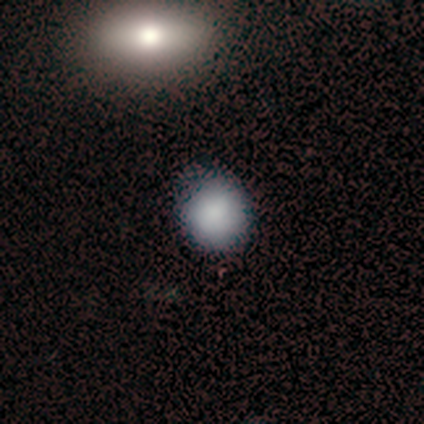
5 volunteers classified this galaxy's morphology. This appears to be a smooth galaxy with no disk features (80%) that is round (50%, tied with in between). Merging: none (60%).